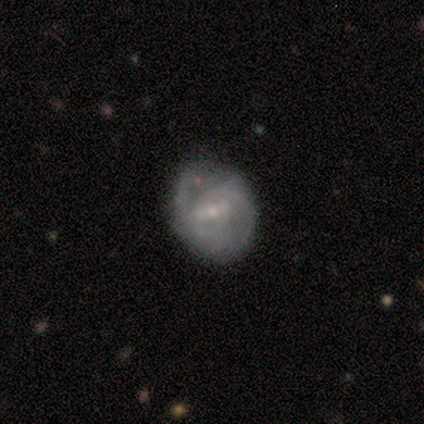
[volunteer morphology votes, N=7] Overall: smooth (43%, tied with featured or disk). How rounded: in between (67%; round 33%). Merging: none (50%; minor disturbance 33%).